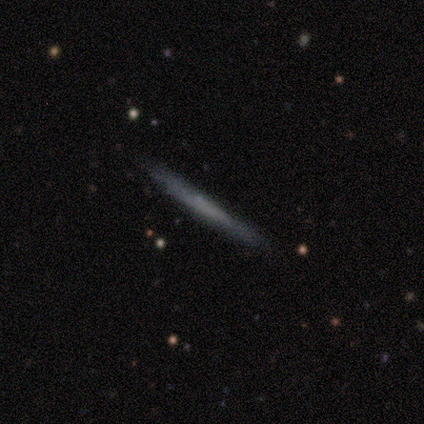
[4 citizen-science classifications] This appears to be a smooth galaxy with no disk features (75%) that is cigar-shaped (100%). Merging: none (100%).